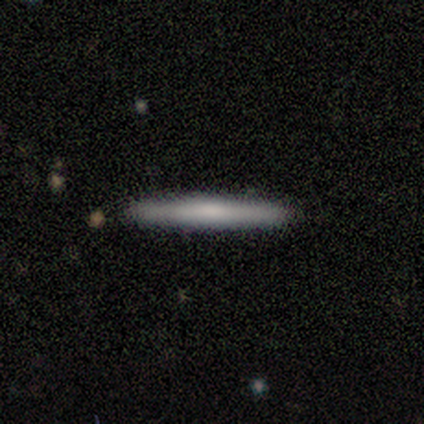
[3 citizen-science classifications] Morphology: type=featured or disk (100%); edge-on=yes (67%); edge-on bulge=boxy (50%, tied with none); merging=none (67%).